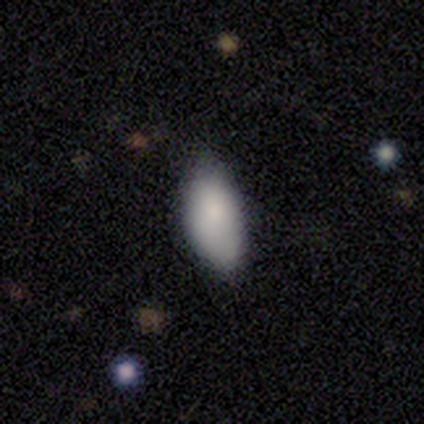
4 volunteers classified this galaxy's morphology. Smooth or featured: smooth — 100%
How rounded: in between — 100%
Merging: none — 100%